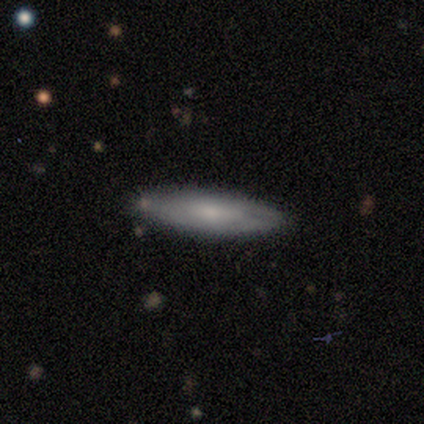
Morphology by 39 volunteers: smooth 56%, featured or disk 44%, star or artifact 0%. Down the decision tree: how rounded — cigar-shaped (55%); merging — none (77%).